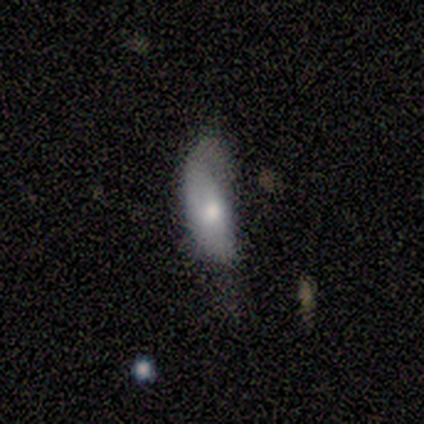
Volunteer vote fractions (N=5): This is marginally a smooth galaxy (40%, tied with featured or disk). How rounded: clearly in between (100%). Merging: possibly minor disturbance (50%).